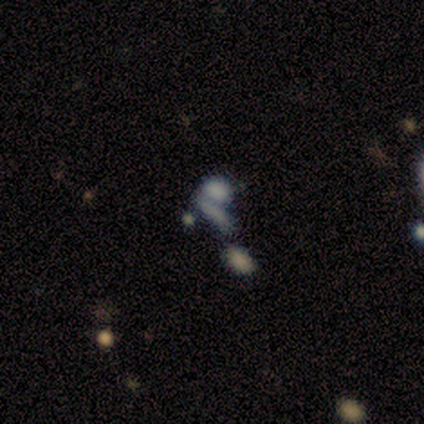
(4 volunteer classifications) A smooth galaxy with no disk features (50%, tied with featured or disk) that is in between round and cigar-shaped (50%, tied with cigar-shaped).

Vote fractions:
- Smooth or featured? smooth: 50% (tied) / featured or disk: 50% (tied) / star or artifact: 0%
- How rounded? in between: 50% (tied) / cigar-shaped: 50% (tied) / round: 0%
- Merging? merger: 50% / none: 25% / major disturbance: 25% / minor disturbance: 0%